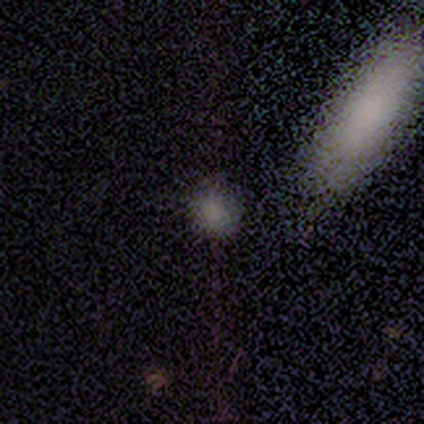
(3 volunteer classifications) Overall: smooth (100%). How rounded: round (67%; in between 33%). Merging: none (67%; minor disturbance 33%).